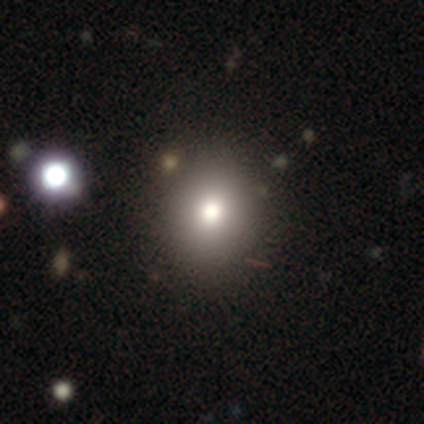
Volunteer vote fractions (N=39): Volunteers were most divided on "smooth or featured": smooth: 67%, star or artifact: 23%, featured or disk: 10%. More confident: merging — none (83%); how rounded — round (77%).